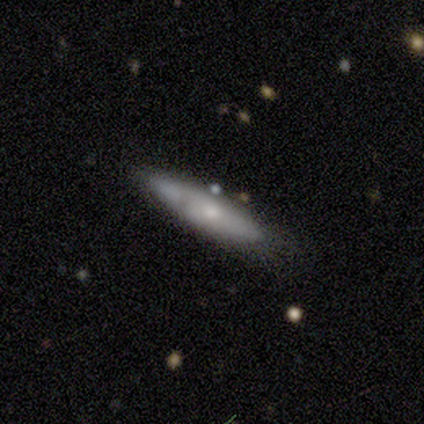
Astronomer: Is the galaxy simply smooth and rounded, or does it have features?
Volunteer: smooth — 47%, tied with featured or disk at 47%.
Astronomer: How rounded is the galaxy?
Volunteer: cigar-shaped — 88%.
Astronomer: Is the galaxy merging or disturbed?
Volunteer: none — 62%.